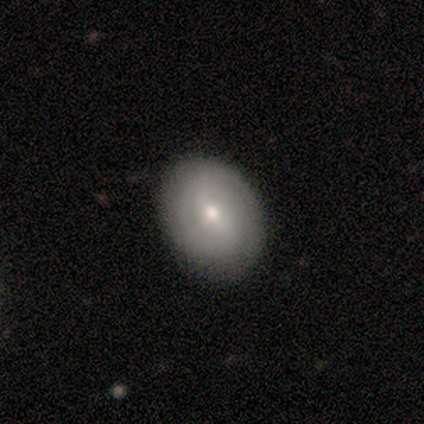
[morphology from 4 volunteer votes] Overall: smooth (50%, tied with featured or disk). How rounded: in between (100%). Merging: none (75%).